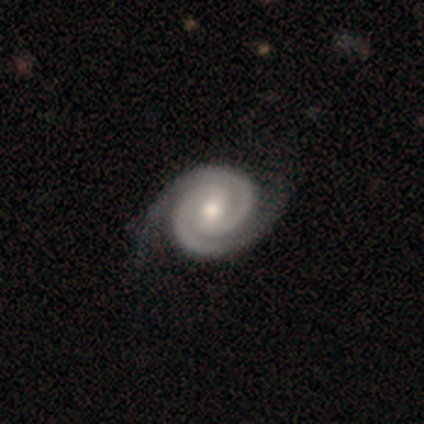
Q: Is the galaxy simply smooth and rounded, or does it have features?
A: featured or disk — 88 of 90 (98%).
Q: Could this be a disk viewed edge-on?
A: no — 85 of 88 (97%).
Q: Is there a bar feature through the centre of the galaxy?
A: weak — 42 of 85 (49%).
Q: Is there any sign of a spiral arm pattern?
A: yes — 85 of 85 (100%).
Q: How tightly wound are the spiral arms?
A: tight — 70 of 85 (82%).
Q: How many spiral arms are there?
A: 2 — 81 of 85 (95%).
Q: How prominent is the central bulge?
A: moderate — 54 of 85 (64%).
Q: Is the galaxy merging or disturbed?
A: none — 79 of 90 (88%).